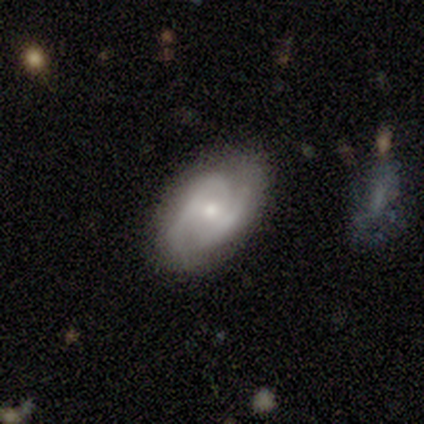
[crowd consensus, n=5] Volunteers were most divided on "spiral winding" (2-way tie): tight: 50%, medium: 50%, loose: 0%. More confident: edge-on disk — no (100%); spiral arms — yes (100%); smooth or featured — featured or disk (80%); spiral arm count — 2 (75%); bulge size — small (75%); merging — minor disturbance (60%); bar — no (50%).